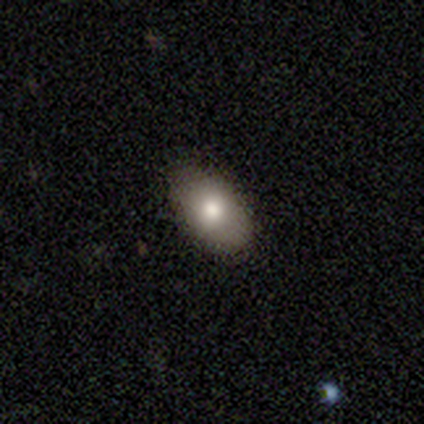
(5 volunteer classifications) A smooth galaxy with no disk features (60%) that is in between round and cigar-shaped (100%).

Vote fractions:
- Smooth or featured? smooth: 60% / featured or disk: 40% / star or artifact: 0%
- How rounded? in between: 100% / round: 0% / cigar-shaped: 0%
- Merging? none: 80% / minor disturbance: 20% / major disturbance: 0% / merger: 0%